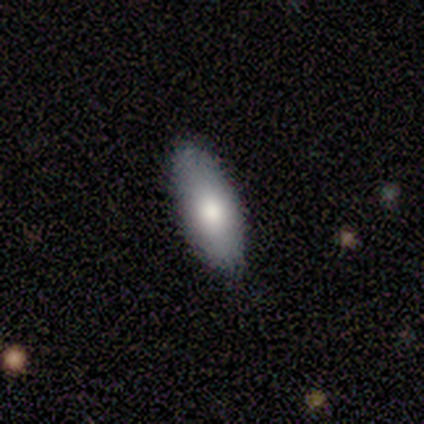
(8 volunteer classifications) This appears to be a smooth galaxy with no disk features (88%) that is in between round and cigar-shaped (100%). Merging: none (88%).